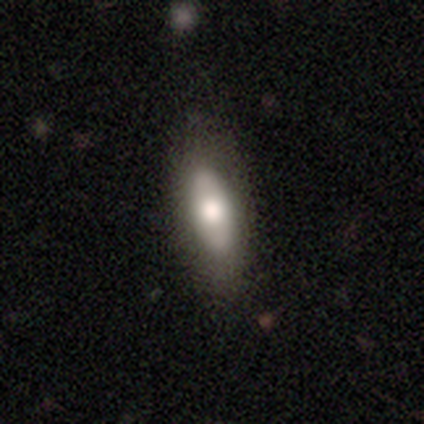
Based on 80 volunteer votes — A smooth galaxy with no disk features (65%) that is in between round and cigar-shaped (69%). Merging: none (52%).